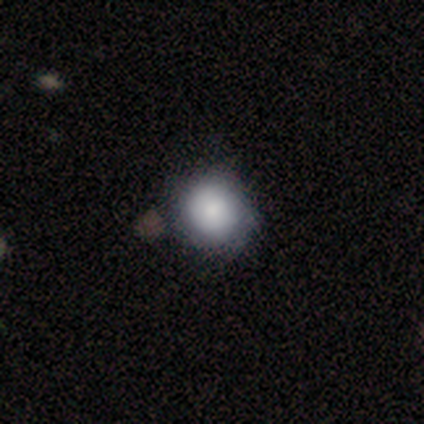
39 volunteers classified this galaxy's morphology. A smooth galaxy with no disk features (77%) that is round (87%).

Vote fractions:
- Smooth or featured? smooth: 77% / featured or disk: 18% / star or artifact: 5%
- How rounded? round: 87% / in between: 13% / cigar-shaped: 0%
- Merging? none: 54% / minor disturbance: 11% / major disturbance: 3% / merger: 0%